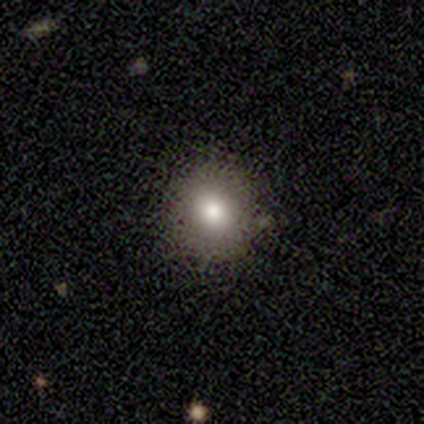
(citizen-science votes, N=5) Volunteers were most divided on "merging": none: 80%, minor disturbance: 20%, major disturbance: 0%, merger: 0%. More confident: smooth or featured — smooth (100%); how rounded — round (100%).